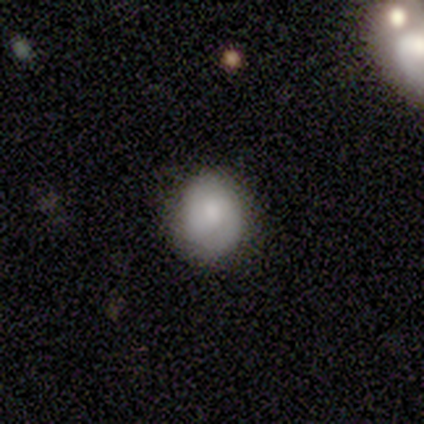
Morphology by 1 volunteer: Smooth or featured: smooth — 100%
How rounded: round — 100%
Merging: none — 100%